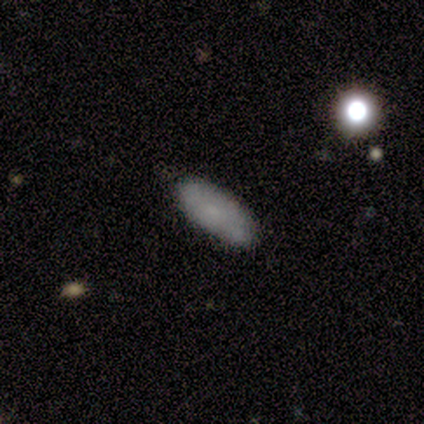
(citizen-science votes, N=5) Smooth or featured: smooth — 80% (star or artifact — 20%)
How rounded: in between — 75% (cigar-shaped — 25%)
Merging: none — 100%